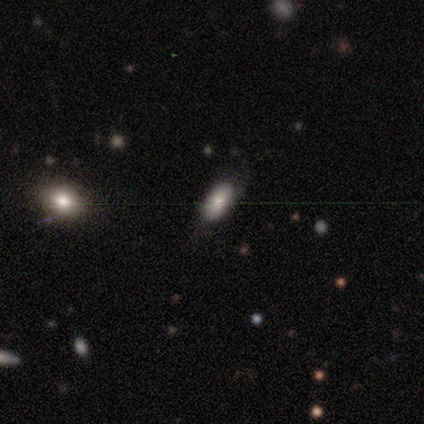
Q: Smooth or featured?
A: smooth (80%); runner-up: featured or disk (20%)
Q: How rounded?
A: in between (100%)
Q: Merging?
A: none (100%)